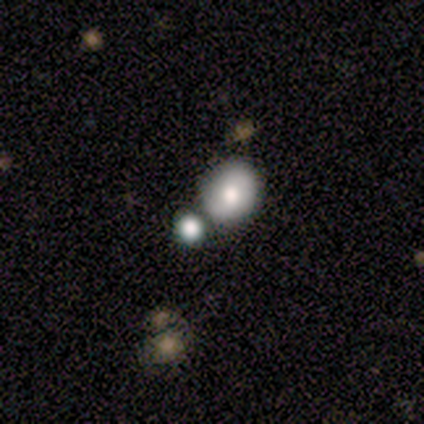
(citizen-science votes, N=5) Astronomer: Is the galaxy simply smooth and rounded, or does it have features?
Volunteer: smooth — 80%.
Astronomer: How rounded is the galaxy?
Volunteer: round — 50%, tied with in between at 50%.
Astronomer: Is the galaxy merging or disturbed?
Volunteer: minor disturbance — 40% (runner-up: none, 20%).